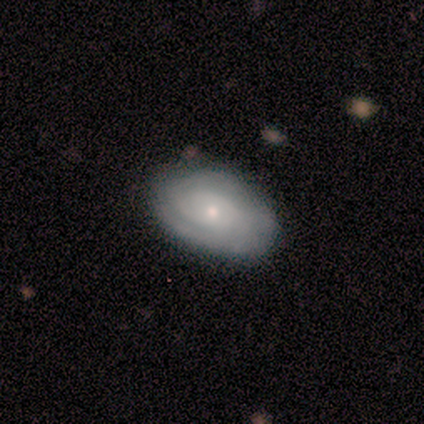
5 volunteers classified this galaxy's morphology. Smooth or featured? 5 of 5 (100%) said featured or disk. Edge-on disk? 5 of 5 (100%) said no. Bar? 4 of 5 (80%) said no. Spiral arms? 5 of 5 (100%) said yes. Spiral winding? 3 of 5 (60%) said medium. Spiral arm count? 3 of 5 (60%) said 2. Bulge size? 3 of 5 (60%) said small. Merging? 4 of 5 (80%) said none.